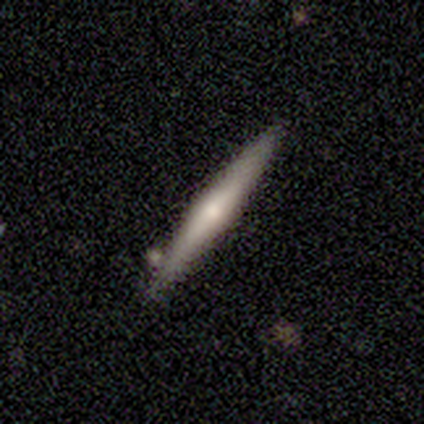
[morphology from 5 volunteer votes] This is likely a featured or disk galaxy (60%). It is clearly viewed edge-on (100%). Edge-on bulge: clearly rounded (100%). Merging: clearly none (100%).